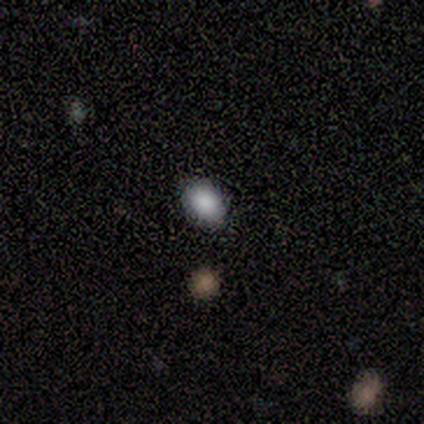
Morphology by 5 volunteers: smooth_or_featured: star or artifact (p=0.60) [alt: smooth p=0.40]